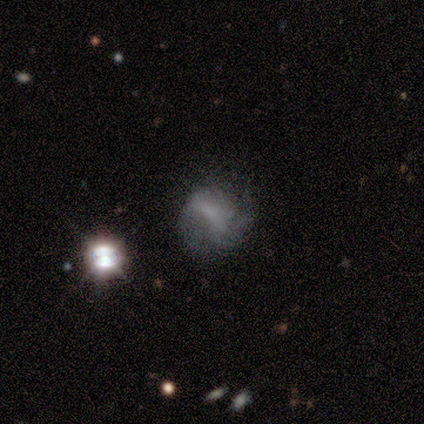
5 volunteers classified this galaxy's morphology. featured or disk 100%, smooth 0%, star or artifact 0%. Down the decision tree: edge-on disk — no (100%); bar — weak (40%, tied with no); spiral arms — yes (80%); spiral arm count — 3 (50%); spiral winding — loose (50%); bulge size — small (60%); merging — minor disturbance (60%).